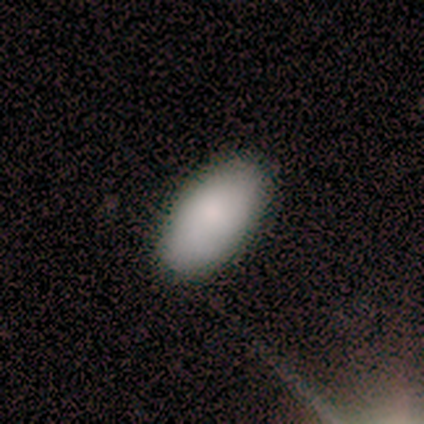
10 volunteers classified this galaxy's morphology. Volunteers were most divided on "smooth or featured": smooth: 80%, featured or disk: 20%, star or artifact: 0%. More confident: how rounded — in between (100%); merging — none (100%).